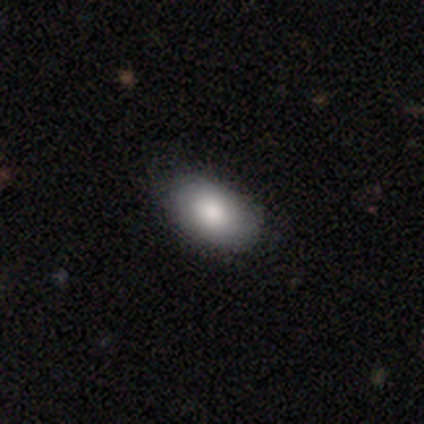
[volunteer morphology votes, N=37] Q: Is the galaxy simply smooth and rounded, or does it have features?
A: smooth — 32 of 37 (86%).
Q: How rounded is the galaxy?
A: in between — 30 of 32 (94%).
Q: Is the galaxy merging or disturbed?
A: none — 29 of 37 (78%).